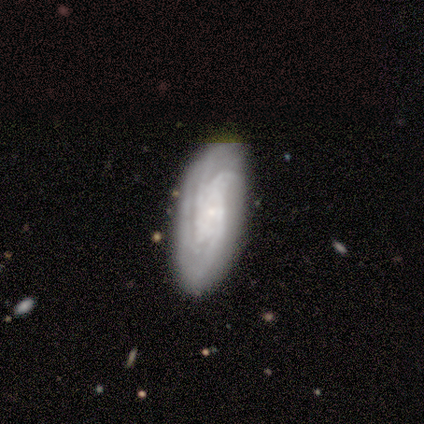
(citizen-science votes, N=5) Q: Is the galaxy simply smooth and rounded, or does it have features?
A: featured or disk — 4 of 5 (80%).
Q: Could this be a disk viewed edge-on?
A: no — 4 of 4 (100%).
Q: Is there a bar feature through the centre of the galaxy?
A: weak — 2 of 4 (50%, tied with no).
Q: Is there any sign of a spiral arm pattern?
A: yes — 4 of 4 (100%).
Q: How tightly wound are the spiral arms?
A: tight — 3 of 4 (75%).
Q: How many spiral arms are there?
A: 2 — 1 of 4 (25%, tied with 3, 4 and can't tell).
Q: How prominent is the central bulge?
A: moderate — 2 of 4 (50%, tied with small).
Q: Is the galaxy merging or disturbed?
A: none — 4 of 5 (80%).